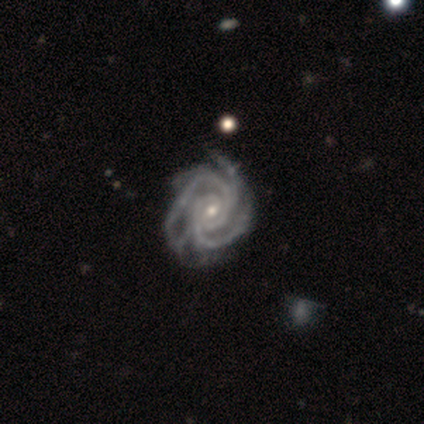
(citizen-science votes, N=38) Q: Smooth or featured?
A: featured or disk (95%); runner-up: smooth (5%)
Q: Edge-on disk?
A: no (97%); runner-up: yes (3%)
Q: Bar?
A: no (51%); runner-up: weak (43%)
Q: Spiral arms?
A: yes (100%)
Q: Spiral winding?
A: tight (80%); runner-up: medium (20%)
Q: Spiral arm count?
A: 2 (29%); tied with: 3 (29%); 4 (29%)
Q: Bulge size?
A: small (80%); runner-up: moderate (14%)
Q: Merging?
A: none (45%); runner-up: minor disturbance (13%)